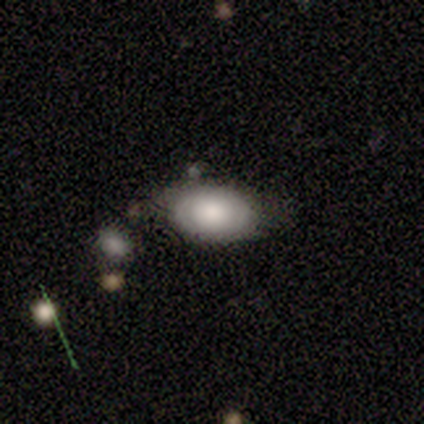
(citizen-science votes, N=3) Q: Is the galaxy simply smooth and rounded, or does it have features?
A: featured or disk — 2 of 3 (67%).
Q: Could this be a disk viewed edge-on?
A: no — 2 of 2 (100%).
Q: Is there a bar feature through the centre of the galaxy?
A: no — 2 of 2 (100%).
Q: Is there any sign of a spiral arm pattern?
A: yes — 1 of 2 (50%, tied with no).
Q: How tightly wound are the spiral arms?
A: tight — 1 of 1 (100%).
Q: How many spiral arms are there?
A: can't tell — 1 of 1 (100%).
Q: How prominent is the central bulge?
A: dominant — 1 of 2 (50%, tied with moderate).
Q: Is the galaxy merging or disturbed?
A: none — 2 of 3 (67%).